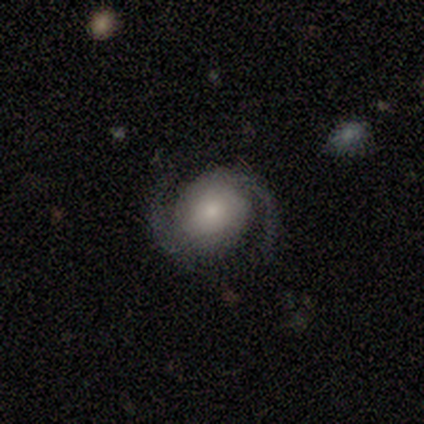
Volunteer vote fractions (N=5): featured or disk 100%, smooth 0%, star or artifact 0%. Down the decision tree: edge-on disk — no (80%); bar — no (75%); spiral arms — yes (100%); spiral arm count — 2 (100%); spiral winding — medium (50%, tied with loose); bulge size — moderate (50%); merging — none (80%).